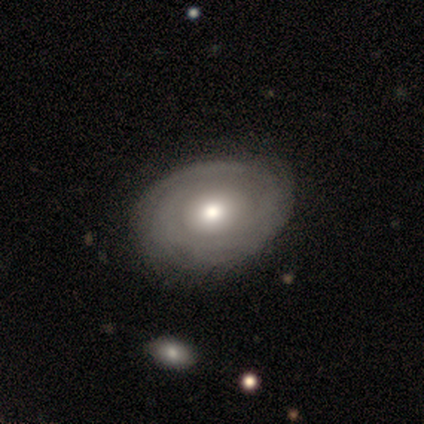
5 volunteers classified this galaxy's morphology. Smooth or featured? featured or disk (60%)
Edge-on disk? no (67%)
Bar? no (100%)
Spiral arms? yes (50%, tied with no)
Spiral winding? tight (100%)
Spiral arm count? can't tell (100%)
Bulge size? moderate (100%)
Merging? none (60%)